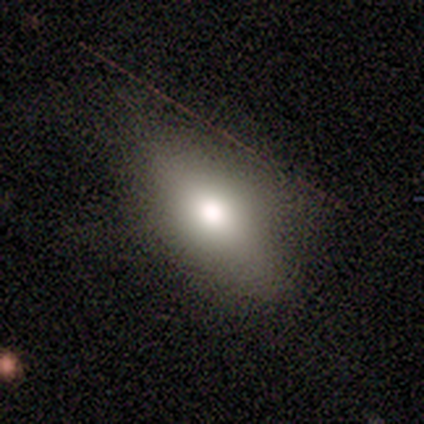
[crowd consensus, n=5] This is clearly a smooth galaxy (80%). How rounded: clearly in between (100%). Merging: clearly none (100%).